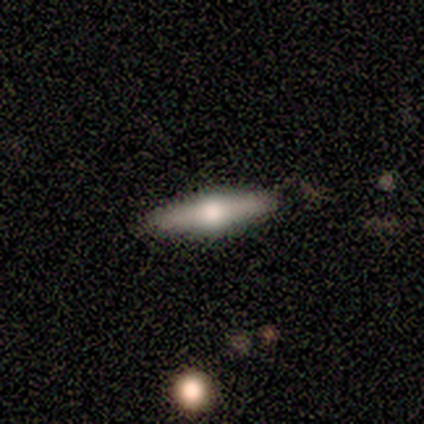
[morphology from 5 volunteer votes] Smooth or featured? featured or disk (60%)
Edge-on disk? yes (100%)
Edge-on bulge? rounded (100%)
Merging? none (80%)